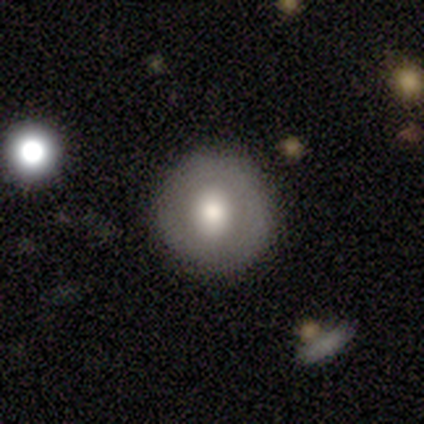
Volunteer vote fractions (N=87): This appears to be a smooth galaxy with no disk features (60%) that is round (98%). Merging: none (90%).